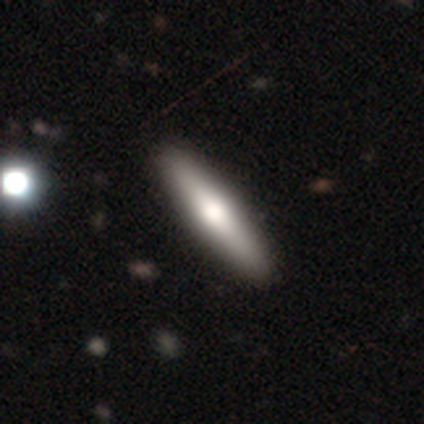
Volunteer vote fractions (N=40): Q: Smooth or featured?
A: smooth (55%); runner-up: featured or disk (45%)
Q: How rounded?
A: cigar-shaped (82%); runner-up: in between (18%)
Q: Merging?
A: none (72%)